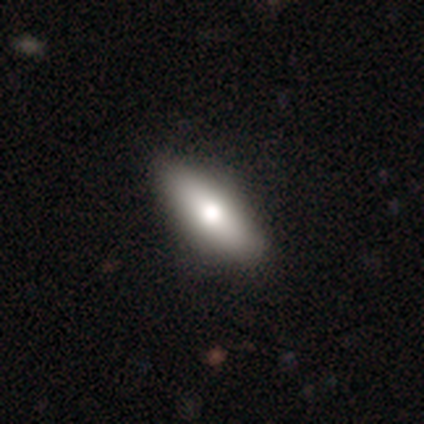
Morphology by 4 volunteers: A smooth galaxy with no disk features (100%) that is in between round and cigar-shaped (100%).

Vote fractions:
- Smooth or featured? smooth: 100% / featured or disk: 0% / star or artifact: 0%
- How rounded? in between: 100% / round: 0% / cigar-shaped: 0%
- Merging? none: 50% (tied) / minor disturbance: 50% (tied) / major disturbance: 0% / merger: 0%